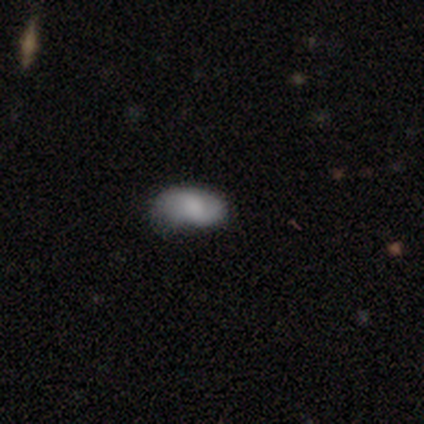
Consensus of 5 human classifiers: Smooth or featured? smooth (80%)
How rounded? in between (100%)
Merging? none (80%)